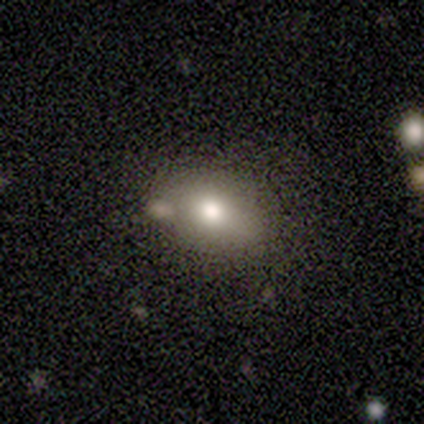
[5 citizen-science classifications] A smooth galaxy with no disk features (100%) that is in between round and cigar-shaped (80%).

Vote fractions:
- Smooth or featured? smooth: 100% / featured or disk: 0% / star or artifact: 0%
- How rounded? in between: 80% / round: 20% / cigar-shaped: 0%
- Merging? none: 80% / minor disturbance: 20% / major disturbance: 0% / merger: 0%